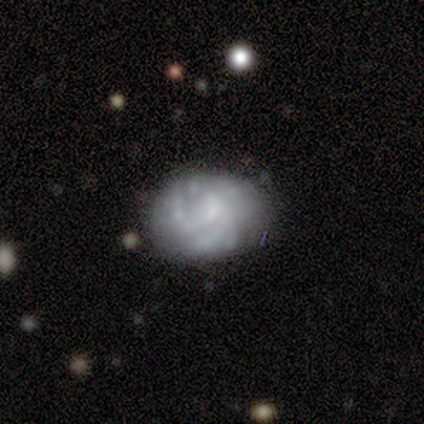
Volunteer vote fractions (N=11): featured or disk 55%, smooth 27%, star or artifact 18%. Down the decision tree: edge-on disk — no (100%); bar — no (100%); spiral arms — yes (67%); spiral arm count — can't tell (50%); spiral winding — tight (50%); bulge size — small (67%); merging — none (67%).